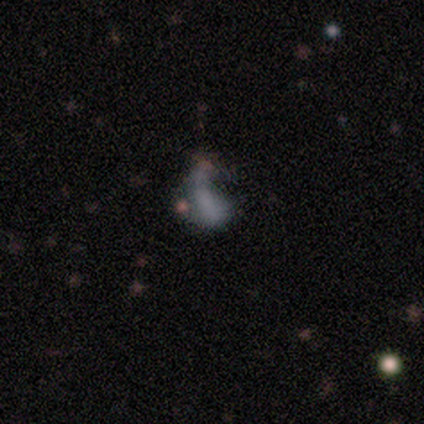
Smooth or featured? smooth (36%, tied with featured or disk)
How rounded? in between (75%)
Merging? major disturbance (38%)